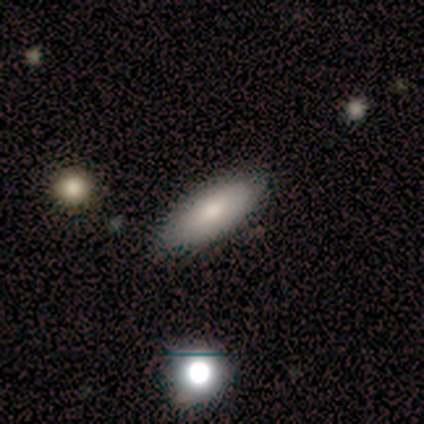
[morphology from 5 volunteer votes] smooth_or_featured: smooth (p=1.00)
how_rounded: in between (p=1.00)
merging: none (p=1.00)